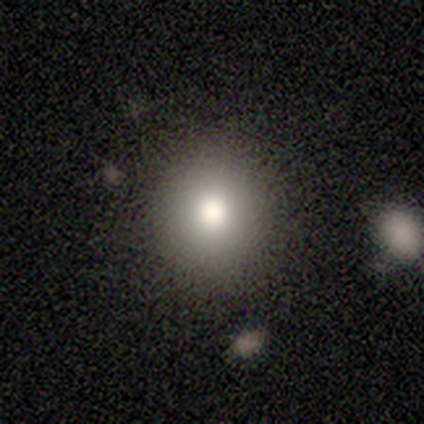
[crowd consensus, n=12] smooth 58%, star or artifact 25%, featured or disk 17%. Down the decision tree: how rounded — round (71%); merging — none (89%).